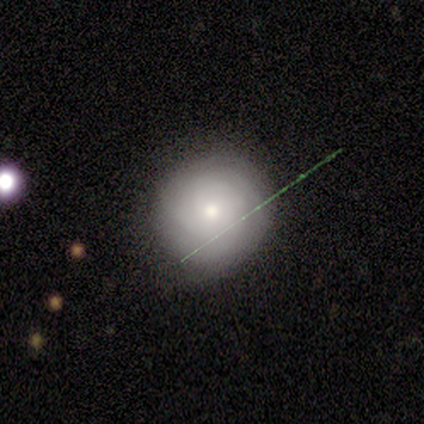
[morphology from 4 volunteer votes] Smooth or featured? 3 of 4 (75%) said smooth. How rounded? 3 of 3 (100%) said round. Merging? 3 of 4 (75%) said minor disturbance.